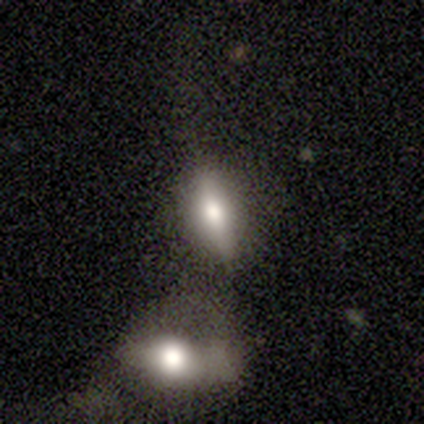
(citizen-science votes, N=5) Overall: smooth (40%, tied with featured or disk). How rounded: in between (50%, tied with cigar-shaped). Merging: none (50%; minor disturbance 25%).